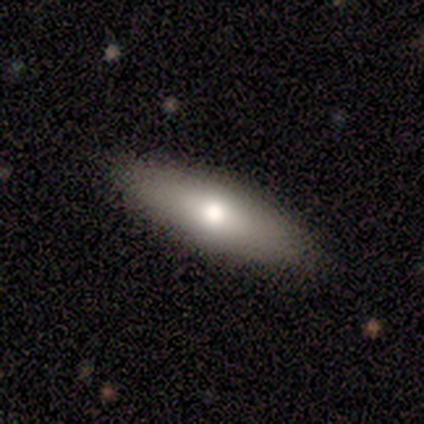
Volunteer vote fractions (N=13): smooth-or-featured: smooth: 62% | featured or disk: 38% | star or artifact: 0%
  how-rounded: in between: 62% | cigar-shaped: 25% | round: 12%
  merging: none: 92% | merger: 8% | minor disturbance: 0% | major disturbance: 0%